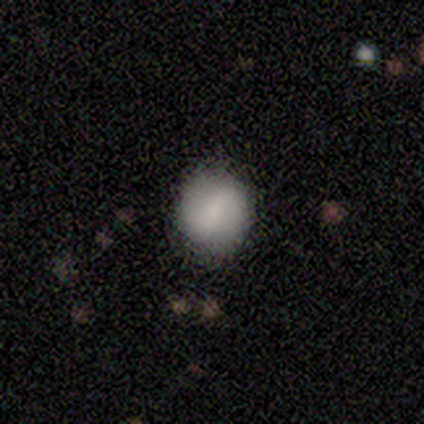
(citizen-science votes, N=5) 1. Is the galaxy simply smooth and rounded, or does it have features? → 100% featured or disk, 0% smooth, 0% star or artifact.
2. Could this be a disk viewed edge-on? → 100% no, 0% yes.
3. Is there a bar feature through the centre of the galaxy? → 80% weak, 20% no, 0% strong.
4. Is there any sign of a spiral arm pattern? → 60% no, 40% yes.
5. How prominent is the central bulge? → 40% small (tied), 40% none (tied), 20% moderate, 0% dominant, 0% large.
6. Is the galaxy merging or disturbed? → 100% none, 0% minor disturbance, 0% major disturbance, 0% merger.